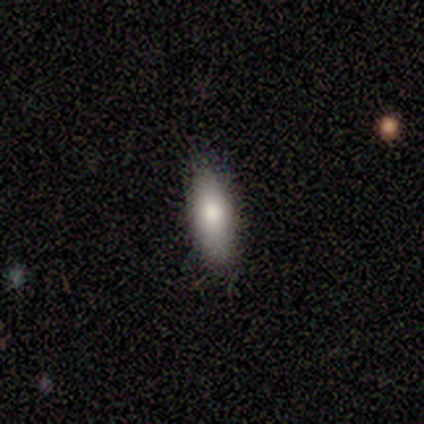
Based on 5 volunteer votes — smooth_or_featured: smooth (p=0.80) [alt: featured or disk p=0.20]
how_rounded: in between (p=0.75) [alt: cigar-shaped p=0.25]
merging: none (p=1.00)